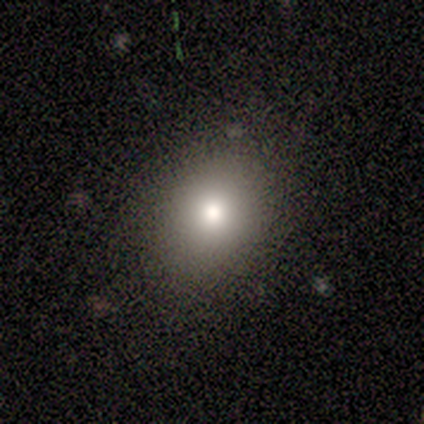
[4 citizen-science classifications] Overall: smooth (75%). How rounded: round (100%). Merging: none (100%).